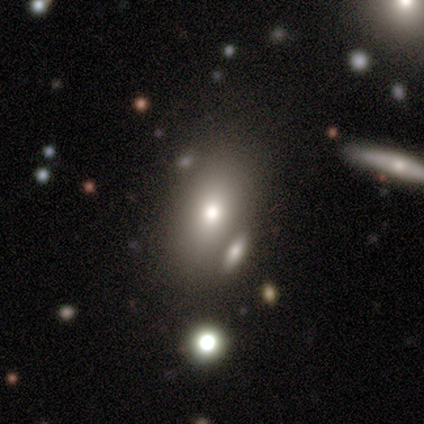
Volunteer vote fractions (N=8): smooth_or_featured: smooth (p=0.88) [alt: featured or disk p=0.12]
how_rounded: in between (p=0.86) [alt: cigar-shaped p=0.14]
merging: none (p=0.62) [alt: major disturbance p=0.25]